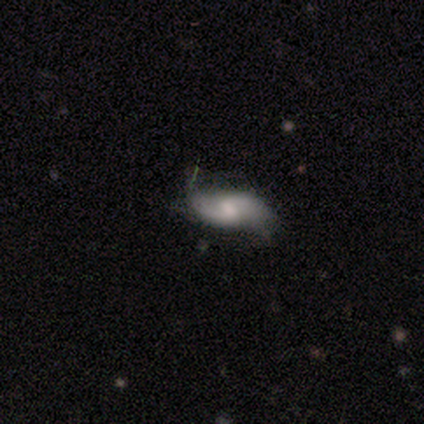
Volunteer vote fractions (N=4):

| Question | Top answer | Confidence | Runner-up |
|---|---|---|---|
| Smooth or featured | featured or disk | 50% | smooth (25%) |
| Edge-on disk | no | 100% | — |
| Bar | weak | 50% | tied: no (50%) |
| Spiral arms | yes | 100% | — |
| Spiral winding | medium | 50% | tied: loose (50%) |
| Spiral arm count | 2 | 100% | — |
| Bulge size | moderate | 100% | — |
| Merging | none | 100% | — |